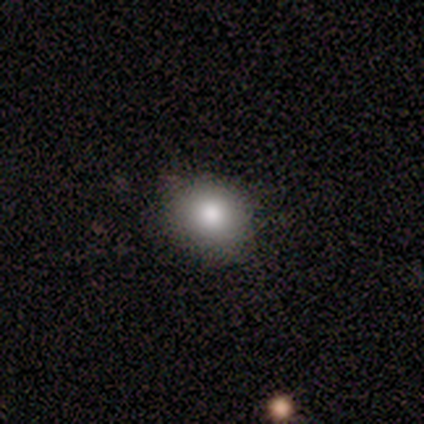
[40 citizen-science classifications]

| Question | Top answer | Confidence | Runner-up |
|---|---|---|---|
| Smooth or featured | smooth | 85% | featured or disk (12%) |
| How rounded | round | 68% | in between (32%) |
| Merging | none | 77% | minor disturbance (21%) |